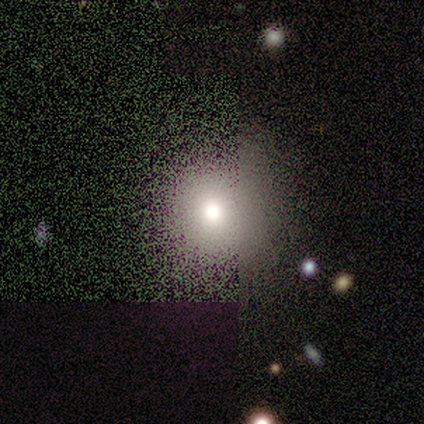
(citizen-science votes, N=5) Q: Smooth or featured?
A: smooth (40%); tied with: star or artifact (40%)
Q: How rounded?
A: round (100%)
Q: Merging?
A: none (33%); tied with: minor disturbance (33%); major disturbance (33%)